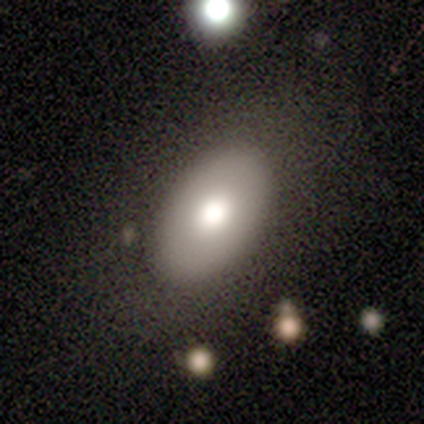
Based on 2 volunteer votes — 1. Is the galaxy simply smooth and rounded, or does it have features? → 100% smooth, 0% featured or disk, 0% star or artifact.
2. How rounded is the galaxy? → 50% round (tied), 50% in between (tied), 0% cigar-shaped.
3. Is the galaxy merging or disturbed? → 100% none, 0% minor disturbance, 0% major disturbance, 0% merger.